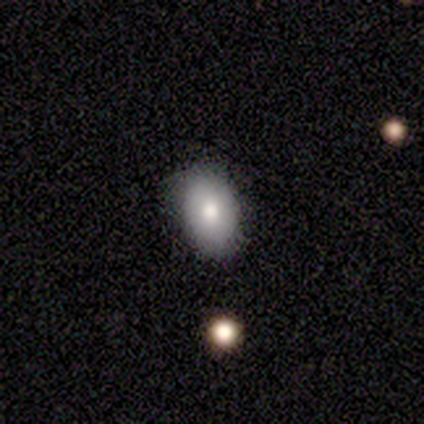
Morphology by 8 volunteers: Smooth or featured? 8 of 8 (100%) said smooth. How rounded? 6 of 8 (75%) said in between. Merging? 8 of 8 (100%) said none.